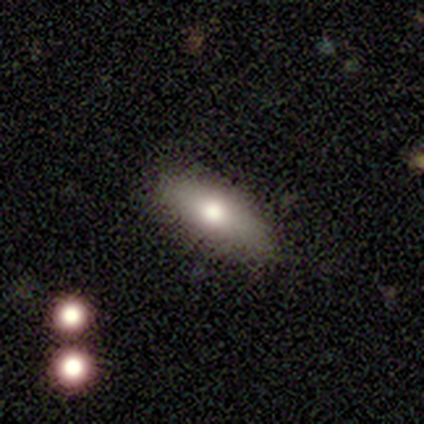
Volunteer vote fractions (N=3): Smooth or featured: smooth — 67% (featured or disk — 33%)
How rounded: in between — 100%
Merging: none — 67% (minor disturbance — 33%)